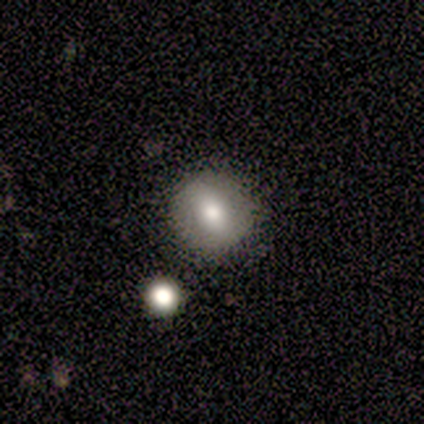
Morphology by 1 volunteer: Overall: smooth (100%). How rounded: round (100%). Merging: none (100%).